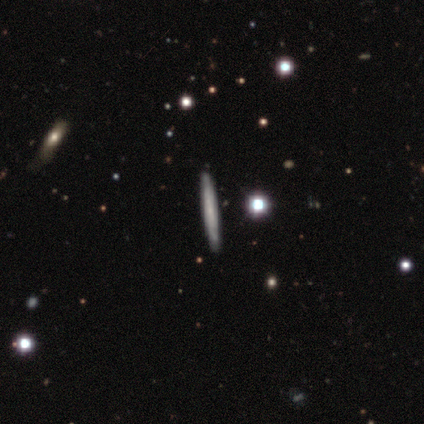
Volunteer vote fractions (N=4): Smooth or featured: star or artifact — 75% (featured or disk — 25%)